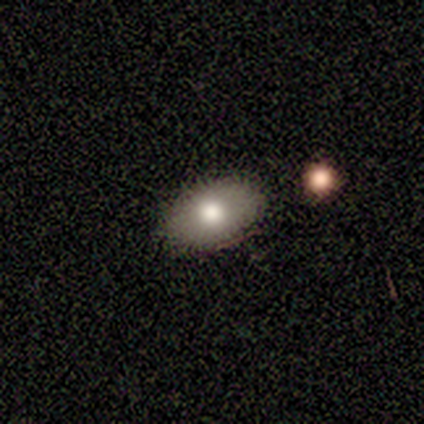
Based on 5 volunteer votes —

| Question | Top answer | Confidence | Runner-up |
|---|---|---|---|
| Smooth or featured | smooth | 80% | star or artifact (20%) |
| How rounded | in between | 100% | — |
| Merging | none | 100% | — |